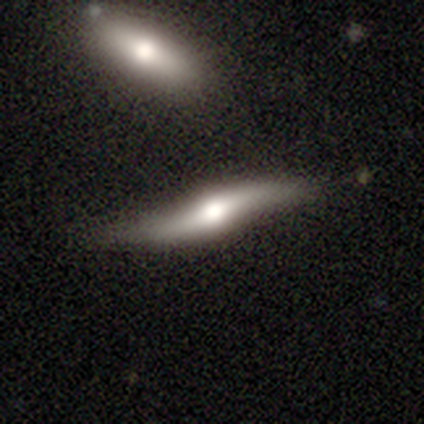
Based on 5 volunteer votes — smooth-or-featured: featured or disk: 60% | smooth: 40% | star or artifact: 0%
  disk-edge-on: yes: 100% | no: 0%
    edge-on-bulge: rounded: 100% | boxy: 0% | none: 0%
  merging: none: 40% | minor disturbance: 20% | major disturbance: 20% | merger: 20%